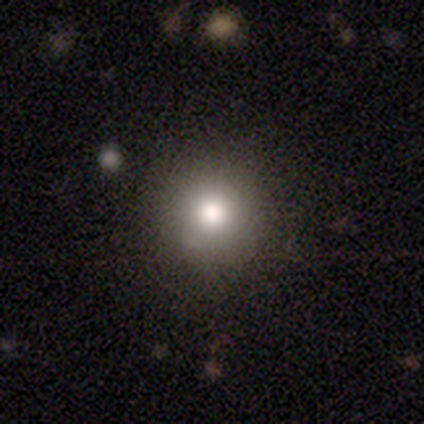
Smooth or featured: smooth — 71% (star or artifact — 16%)
How rounded: round — 100%
Merging: none — 100%